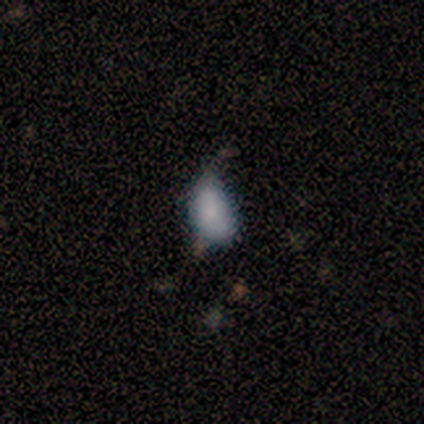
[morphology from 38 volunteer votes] smooth-or-featured: smooth: 71% | featured or disk: 24% | star or artifact: 5%
  how-rounded: in between: 89% | round: 7% | cigar-shaped: 4%
  merging: none: 39% (tied) | minor disturbance: 39% (tied) | major disturbance: 19% | merger: 3%